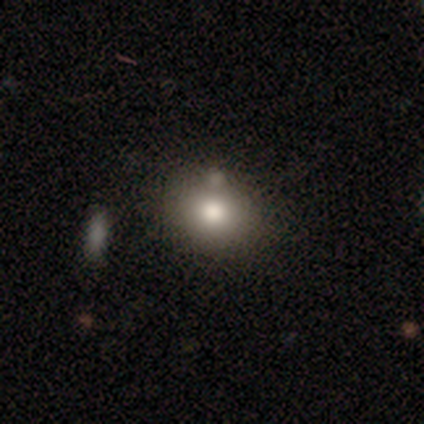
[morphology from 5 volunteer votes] smooth 80%, featured or disk 20%, star or artifact 0%. Down the decision tree: how rounded — round (75%); merging — none (60%).